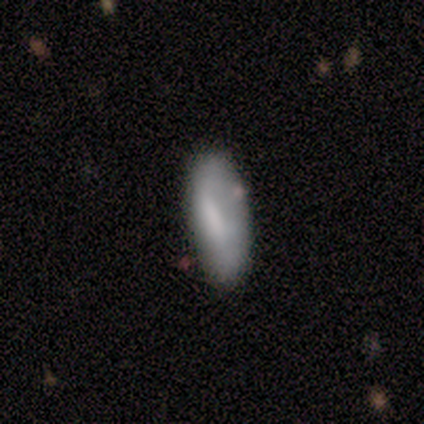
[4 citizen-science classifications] Smooth or featured?
  - smooth: 50% * (tied)
  - featured or disk: 50% * (tied)
  - star or artifact: 0%
How rounded?
  - in between: 100% *
  - round: 0%
  - cigar-shaped: 0%
Merging?
  - none: 75% *
  - minor disturbance: 25%
  - major disturbance: 0%
  - merger: 0%